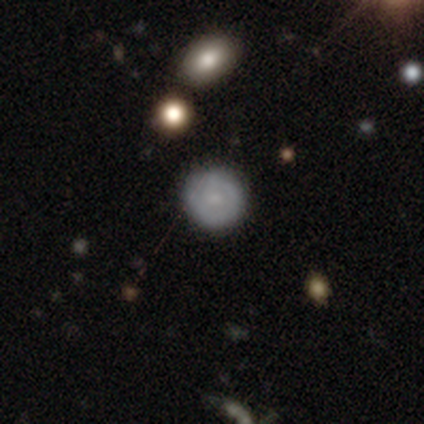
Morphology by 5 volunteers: This is likely a smooth galaxy (60%). How rounded: clearly round (100%). Merging: clearly none (100%).